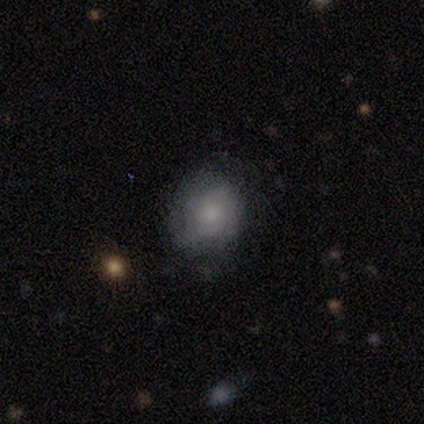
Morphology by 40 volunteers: This is likely a smooth galaxy (72%). How rounded: likely round (66%). Merging: clearly none (85%).